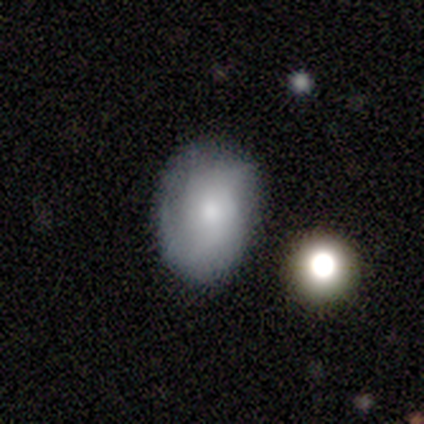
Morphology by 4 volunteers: type=smooth (50%, tied with featured or disk); roundness=in between (100%); merging=none (50%).